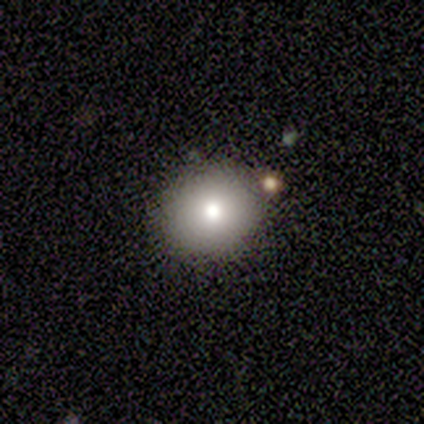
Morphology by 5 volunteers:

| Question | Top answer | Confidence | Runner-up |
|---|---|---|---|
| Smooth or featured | smooth | 60% | featured or disk (20%) |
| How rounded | in between | 100% | — |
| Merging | none | 100% | — |